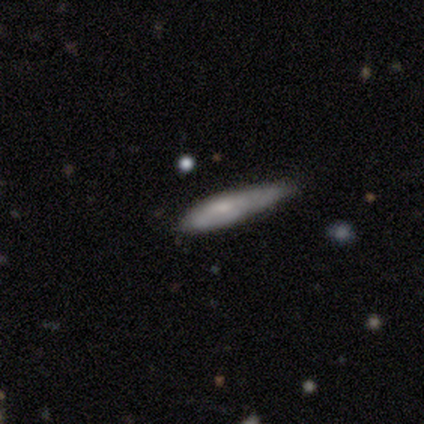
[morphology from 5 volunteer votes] A featured or disk galaxy (60%) viewed edge-on (100%) with no central bulge (67%). Merging: none (100%).